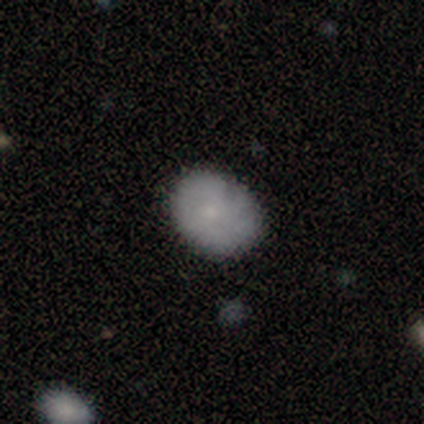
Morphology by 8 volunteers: Smooth or featured? smooth (62%)
How rounded? in between (60%)
Merging? none (88%)